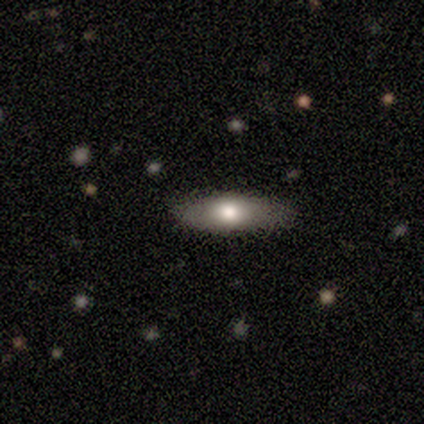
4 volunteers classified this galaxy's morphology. smooth_or_featured: featured or disk (p=0.50) [alt: smooth p=0.25]
disk_edge_on: yes (p=0.50) [tied with: no p=0.50]
edge_on_bulge: none (p=1.00)
merging: none (p=1.00)